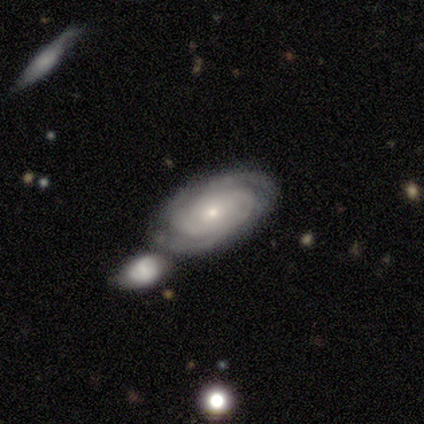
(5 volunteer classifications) Overall: featured or disk (80%). Edge-on disk: no (75%). Bar: no (100%). Spiral arms: yes (100%). Spiral arm count: 3 (33%, tied with 4 and can't tell). Spiral winding: tight (67%; loose 33%). Bulge size: small (100%). Merging: merger (60%; none 40%).